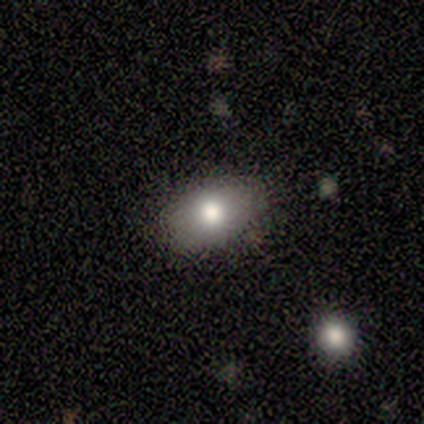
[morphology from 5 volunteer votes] A smooth galaxy with no disk features (60%) that is in between round and cigar-shaped (100%). Merging: none (100%).